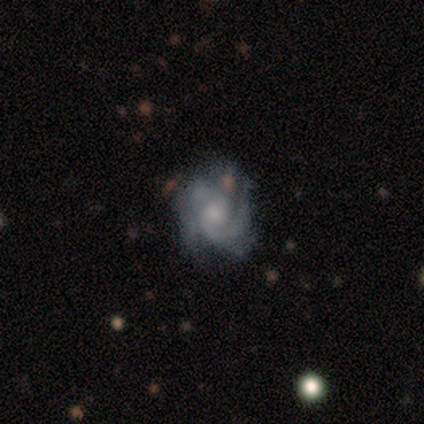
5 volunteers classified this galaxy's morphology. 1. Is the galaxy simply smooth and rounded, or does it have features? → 80% featured or disk, 20% star or artifact, 0% smooth.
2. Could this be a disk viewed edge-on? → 100% no, 0% yes.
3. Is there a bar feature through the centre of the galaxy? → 75% no, 25% weak, 0% strong.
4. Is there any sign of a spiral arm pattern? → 100% yes, 0% no.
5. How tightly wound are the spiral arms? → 50% tight (tied), 50% medium (tied), 0% loose.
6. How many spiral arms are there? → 50% 2, 25% 4, 25% can't tell, 0% 1, 0% 3, 0% more than 4.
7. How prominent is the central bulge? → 25% large (tied), 25% moderate (tied), 25% small (tied), 25% none (tied), 0% dominant.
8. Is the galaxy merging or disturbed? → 50% none (tied), 50% minor disturbance (tied), 0% major disturbance, 0% merger.